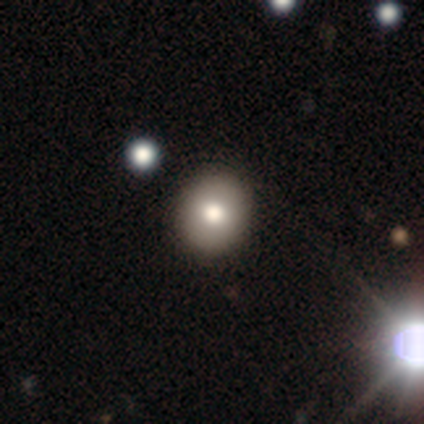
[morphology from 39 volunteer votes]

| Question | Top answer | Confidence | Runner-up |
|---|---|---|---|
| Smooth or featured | smooth | 79% | featured or disk (13%) |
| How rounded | round | 87% | in between (13%) |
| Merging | none | 50% | minor disturbance (11%) |